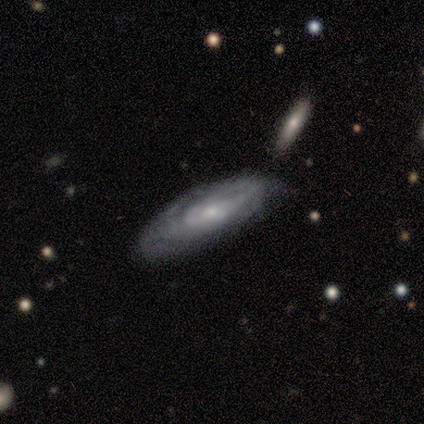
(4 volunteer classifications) smooth_or_featured: smooth (p=0.50) [tied with: featured or disk p=0.50]
how_rounded: cigar-shaped (p=1.00)
merging: none (p=0.50) [alt: minor disturbance p=0.25]